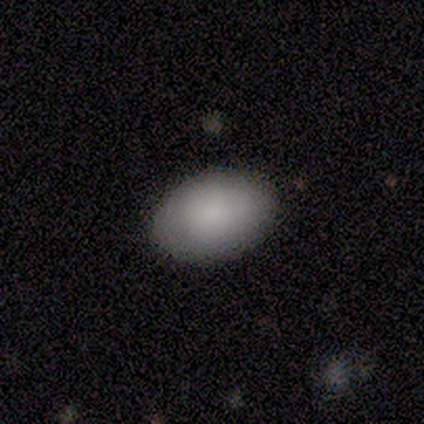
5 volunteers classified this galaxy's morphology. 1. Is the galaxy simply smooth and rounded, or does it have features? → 80% smooth, 20% featured or disk, 0% star or artifact.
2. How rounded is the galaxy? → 75% in between, 25% round, 0% cigar-shaped.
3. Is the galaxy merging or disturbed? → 80% none, 20% minor disturbance, 0% major disturbance, 0% merger.